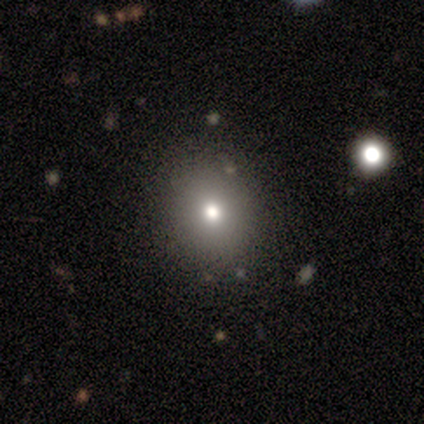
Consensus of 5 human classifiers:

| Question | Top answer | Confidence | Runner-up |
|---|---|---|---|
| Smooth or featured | smooth | 80% | featured or disk (20%) |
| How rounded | round | 50% | tied: in between (50%) |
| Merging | none | 100% | — |